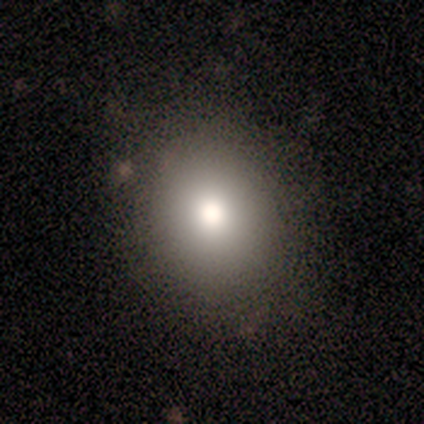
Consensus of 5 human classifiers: Volunteers were most divided on "how rounded": round: 75%, in between: 25%, cigar-shaped: 0%. More confident: merging — none (100%); smooth or featured — smooth (80%).